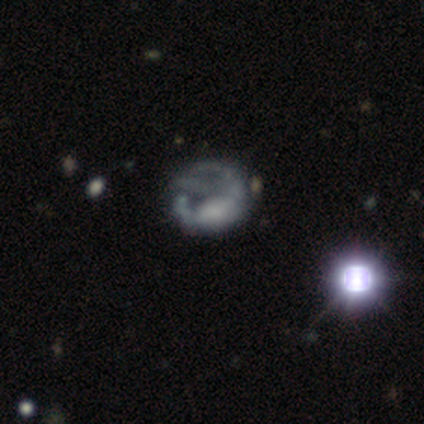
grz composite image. It shows a featured or disk galaxy (86%) with no bar (100%), no spiral arms (100%) and a large central bulge (50%, tied with none). Merging: major disturbance (67%).